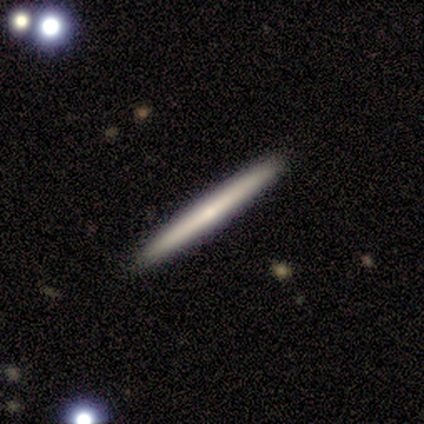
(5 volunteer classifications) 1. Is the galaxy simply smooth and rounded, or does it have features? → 60% smooth, 40% featured or disk, 0% star or artifact.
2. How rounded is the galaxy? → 100% cigar-shaped, 0% round, 0% in between.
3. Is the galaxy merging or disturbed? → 100% none, 0% minor disturbance, 0% major disturbance, 0% merger.